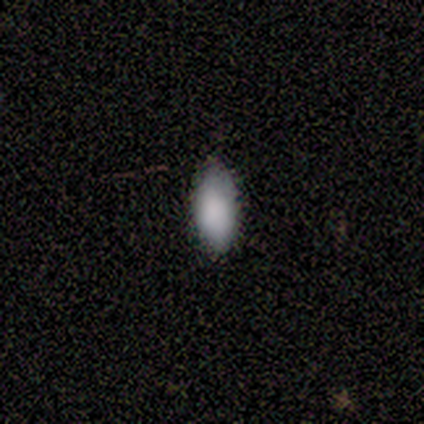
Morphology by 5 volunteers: type=smooth (60%); roundness=in between (100%); merging=none (100%).